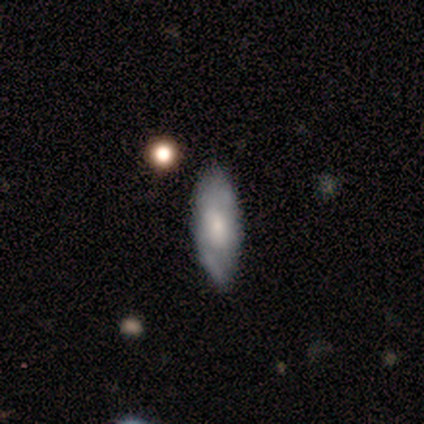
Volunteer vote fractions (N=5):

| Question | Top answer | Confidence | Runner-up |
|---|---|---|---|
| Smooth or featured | featured or disk | 100% | — |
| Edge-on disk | no | 80% | yes (20%) |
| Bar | weak | 75% | no (25%) |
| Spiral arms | yes | 75% | no (25%) |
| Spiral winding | tight | 67% | medium (33%) |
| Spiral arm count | can't tell | 67% | 2 (33%) |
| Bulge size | moderate | 50% | large (25%) |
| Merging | none | 60% | minor disturbance (40%) |